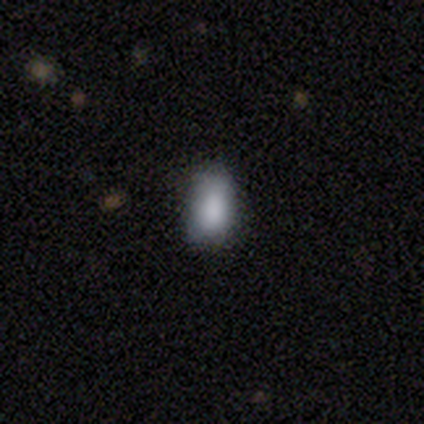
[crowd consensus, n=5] This is clearly a smooth galaxy (100%). How rounded: clearly in between (80%). Merging: clearly none (80%).